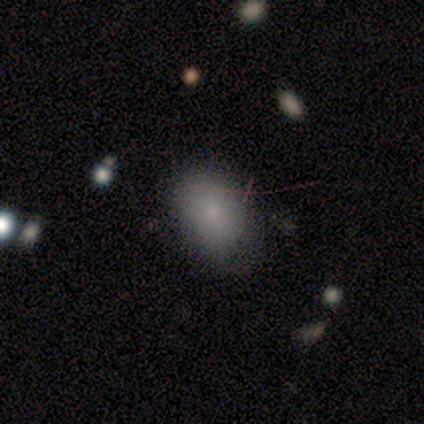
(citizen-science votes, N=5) smooth_or_featured: smooth (p=1.00)
how_rounded: in between (p=0.80) [alt: round p=0.20]
merging: none (p=0.60) [alt: minor disturbance p=0.20]